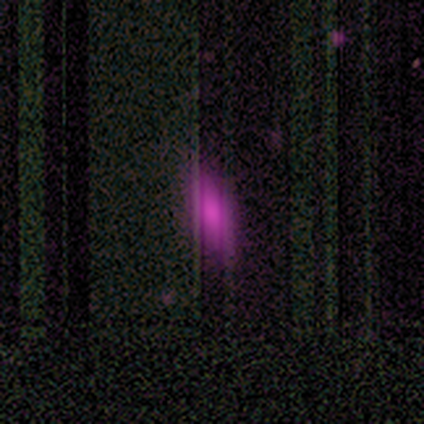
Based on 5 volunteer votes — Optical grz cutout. It shows a smooth galaxy with no disk features (100%) that is in between round and cigar-shaped (80%). Merging: none (80%).